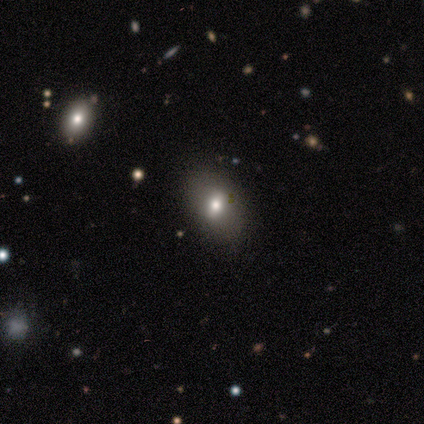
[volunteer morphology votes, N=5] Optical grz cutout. It shows a smooth galaxy with no disk features (60%) that is in between round and cigar-shaped (67%). Merging: none (100%).